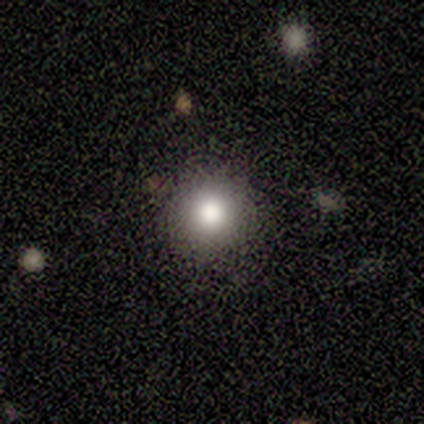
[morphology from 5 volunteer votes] Smooth or featured? smooth (60%)
How rounded? round (100%)
Merging? none (100%)